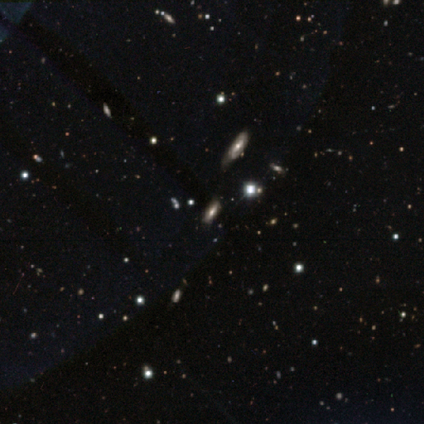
Smooth or featured?
  - featured or disk: 41% *
  - smooth: 34%
  - star or artifact: 24%
Edge-on disk?
  - no: 53% *
  - yes: 47%
Bar?
  - no: 78% *
  - weak: 22%
  - strong: 0%
Spiral arms?
  - no: 67% *
  - yes: 33%
Bulge size?
  - large: 44% *
  - small: 22%
  - none: 22%
  - moderate: 11%
  - dominant: 0%
Merging?
  - none: 77% *
  - minor disturbance: 13%
  - merger: 10%
  - major disturbance: 0%